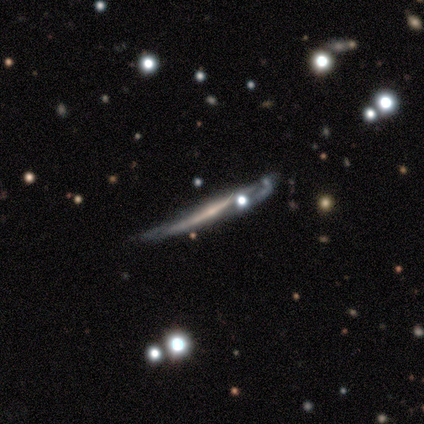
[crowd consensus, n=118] smooth-or-featured: featured or disk: 81% | smooth: 14% | star or artifact: 5%
  disk-edge-on: yes: 97% | no: 3%
    edge-on-bulge: none: 53% | rounded: 45% | boxy: 2%
  merging: none: 36% | minor disturbance: 33% | merger: 20% | major disturbance: 12%